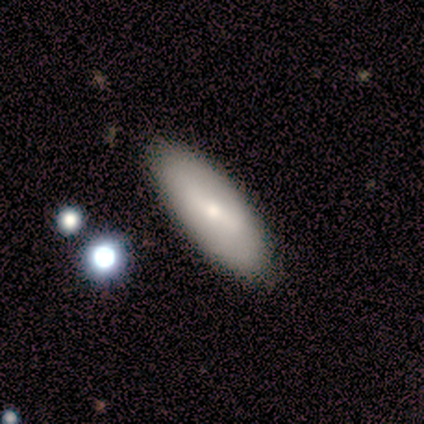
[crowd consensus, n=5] This is likely a smooth galaxy (60%). How rounded: likely in between (67%). Merging: likely none (60%).